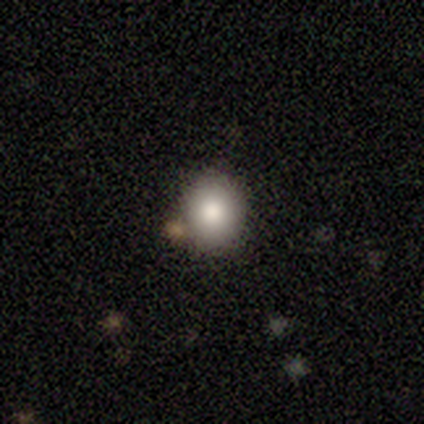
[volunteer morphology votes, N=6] type=smooth (100%); roundness=round (50%, tied with in between); merging=none (83%).